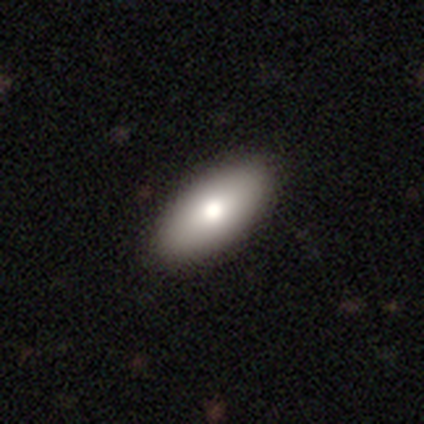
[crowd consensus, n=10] Overall: smooth (90%). How rounded: in between (100%). Merging: none (80%).